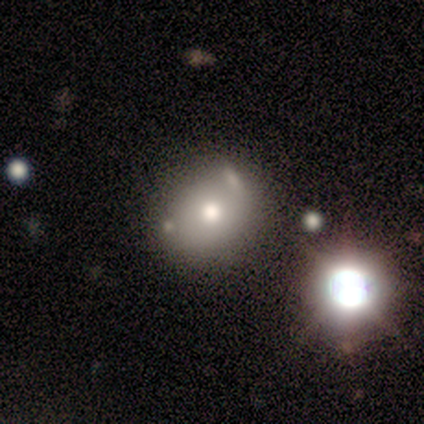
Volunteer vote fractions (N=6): Smooth or featured? 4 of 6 (67%) said smooth. How rounded? 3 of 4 (75%) said round. Merging? 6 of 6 (100%) said none.